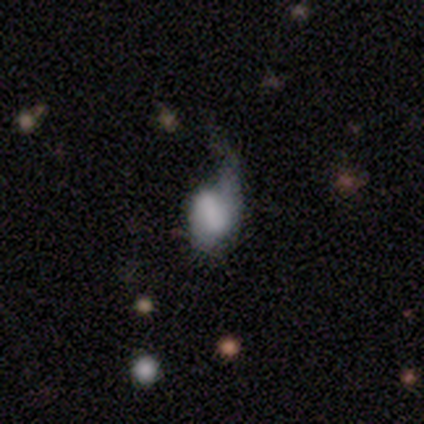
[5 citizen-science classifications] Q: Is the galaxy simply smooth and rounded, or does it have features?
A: smooth — 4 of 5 (80%).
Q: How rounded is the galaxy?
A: in between — 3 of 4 (75%).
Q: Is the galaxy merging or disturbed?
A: major disturbance — 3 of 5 (60%).